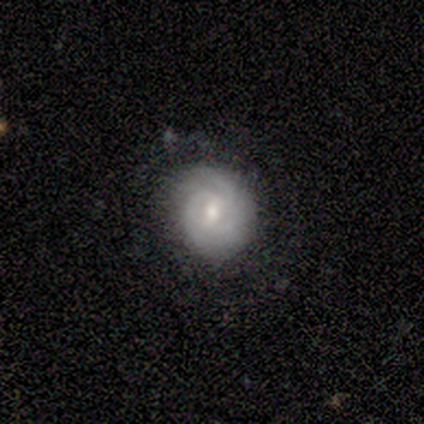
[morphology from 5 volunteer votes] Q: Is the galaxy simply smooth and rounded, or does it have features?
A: featured or disk — 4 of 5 (80%).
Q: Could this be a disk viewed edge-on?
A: no — 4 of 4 (100%).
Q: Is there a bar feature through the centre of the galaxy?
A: weak — 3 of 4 (75%).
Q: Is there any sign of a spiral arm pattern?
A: yes — 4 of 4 (100%).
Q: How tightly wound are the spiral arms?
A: tight — 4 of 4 (100%).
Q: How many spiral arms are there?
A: can't tell — 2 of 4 (50%).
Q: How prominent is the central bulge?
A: moderate — 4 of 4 (100%).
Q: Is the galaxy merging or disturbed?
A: none — 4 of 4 (100%).